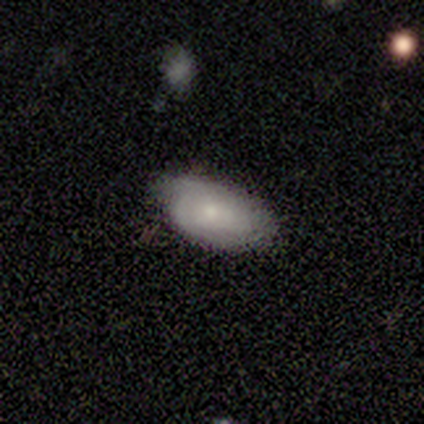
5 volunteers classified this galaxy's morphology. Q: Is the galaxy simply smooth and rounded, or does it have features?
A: smooth — 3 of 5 (60%).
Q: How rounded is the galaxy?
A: in between — 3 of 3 (100%).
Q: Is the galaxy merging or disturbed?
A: none — 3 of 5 (60%).